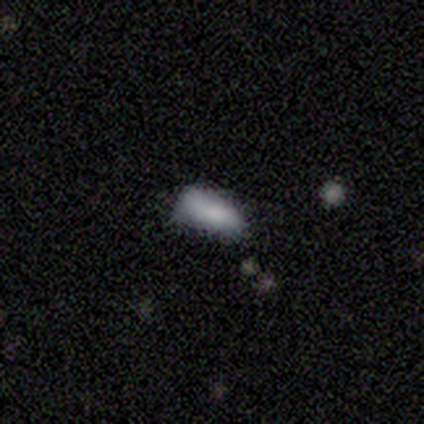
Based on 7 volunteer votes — Smooth or featured? 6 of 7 (86%) said smooth. How rounded? 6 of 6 (100%) said in between. Merging? 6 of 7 (86%) said minor disturbance.